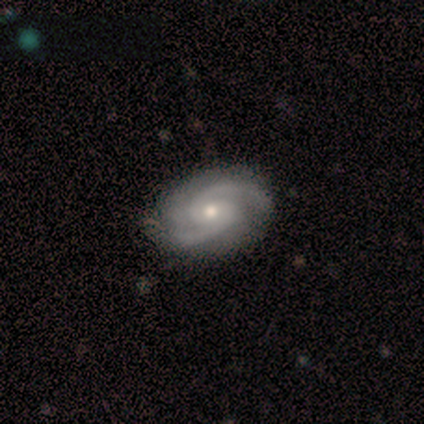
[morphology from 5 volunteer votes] smooth_or_featured: featured or disk (p=0.80) [alt: star or artifact p=0.20]
disk_edge_on: no (p=1.00)
bar: no (p=1.00)
has_spiral_arms: yes (p=1.00)
spiral_winding: medium (p=0.75) [alt: tight p=0.25]
spiral_arm_count: 2 (p=1.00)
bulge_size: small (p=0.75) [alt: moderate p=0.25]
merging: none (p=0.75) [alt: minor disturbance p=0.25]